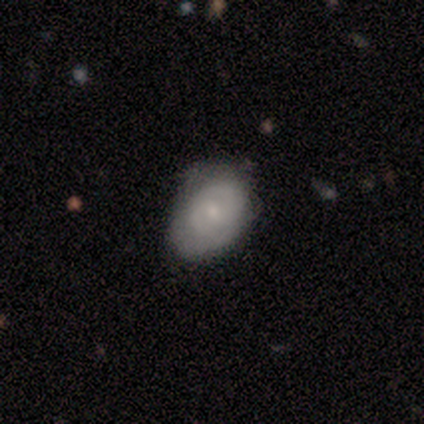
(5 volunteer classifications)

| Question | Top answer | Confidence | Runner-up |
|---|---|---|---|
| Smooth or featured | smooth | 60% | featured or disk (40%) |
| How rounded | in between | 67% | round (33%) |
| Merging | none | 60% | minor disturbance (40%) |